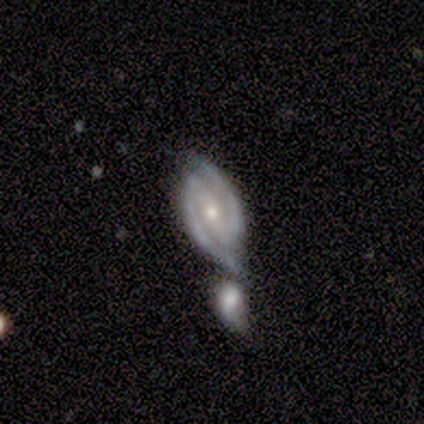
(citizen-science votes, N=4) A featured or disk galaxy (100%) with a strong bar (50%), 2 (100%) medium (50%) spiral arms (100%) and a moderate central bulge (100%).

Vote fractions:
- Smooth or featured? featured or disk: 100% / smooth: 0% / star or artifact: 0%
- Edge-on disk? no: 100% / yes: 0%
- Bar? strong: 50% / weak: 25% / no: 25%
- Spiral arms? yes: 100% / no: 0%
- Spiral winding? medium: 50% / tight: 25% / loose: 25%
- Spiral arm count? 2: 100% / 1: 0% / 3: 0% / 4: 0% / more than 4: 0% / can't tell: 0%
- Bulge size? moderate: 100% / dominant: 0% / large: 0% / small: 0% / none: 0%
- Merging? none: 50% / minor disturbance: 25% / merger: 25% / major disturbance: 0%